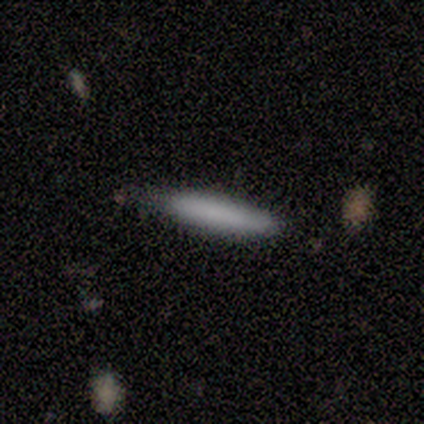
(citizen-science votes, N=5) Smooth or featured: smooth — 80% (star or artifact — 20%)
How rounded: cigar-shaped — 100%
Merging: none — 75% (minor disturbance — 25%)